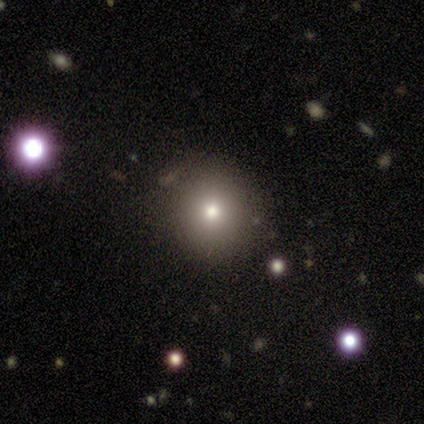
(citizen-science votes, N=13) smooth 77%, featured or disk 15%, star or artifact 8%. Down the decision tree: how rounded — round (80%); merging — none (92%).